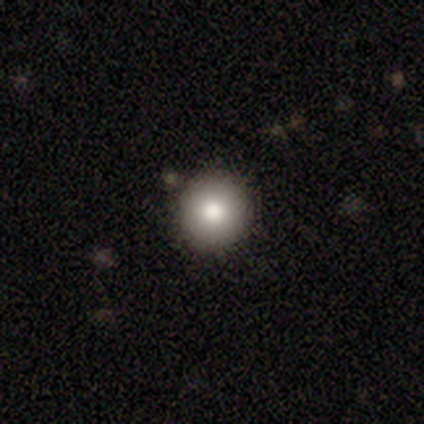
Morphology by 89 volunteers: A smooth galaxy with no disk features (81%) that is round (96%).

Vote fractions:
- Smooth or featured? smooth: 81% / featured or disk: 12% / star or artifact: 7%
- How rounded? round: 96% / in between: 3% / cigar-shaped: 1%
- Merging? none: 88% / minor disturbance: 8% / major disturbance: 2% / merger: 1%